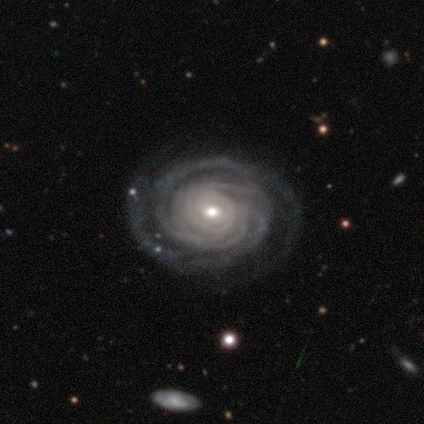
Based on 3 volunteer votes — Smooth or featured: featured or disk — 100%
Edge-on disk: no — 100%
Bar: weak — 67% (no — 33%)
Spiral arms: yes — 100%
Spiral winding: tight — 100%
Spiral arm count: more than 4 — 67% (can't tell — 33%)
Bulge size: moderate — 67% (small — 33%)
Merging: none — 67% (minor disturbance — 33%)